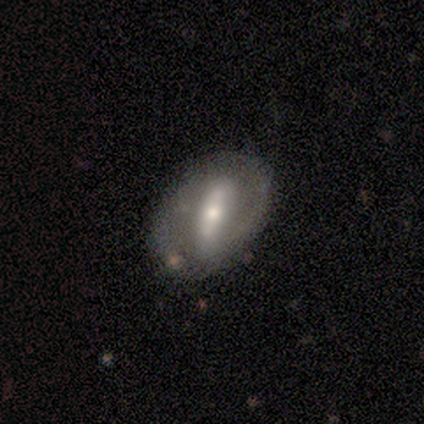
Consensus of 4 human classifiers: Q: Smooth or featured?
A: featured or disk (75%); runner-up: smooth (25%)
Q: Edge-on disk?
A: no (100%)
Q: Bar?
A: strong (100%)
Q: Spiral arms?
A: yes (67%); runner-up: no (33%)
Q: Spiral winding?
A: tight (50%); tied with: medium (50%)
Q: Spiral arm count?
A: 1 (50%); tied with: 2 (50%)
Q: Bulge size?
A: large (33%); tied with: moderate (33%); small (33%)
Q: Merging?
A: none (75%); runner-up: merger (25%)